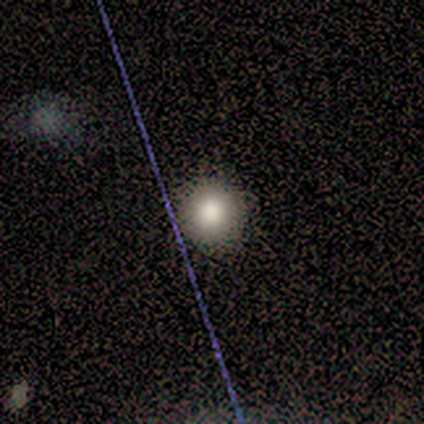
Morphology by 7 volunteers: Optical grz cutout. It shows a smooth galaxy with no disk features (86%) that is round (83%). Merging: none (100%).